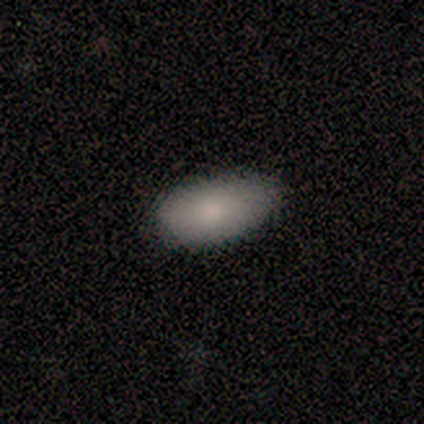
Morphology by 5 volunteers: A smooth galaxy with no disk features (100%) that is in between round and cigar-shaped (100%). Merging: none (100%).